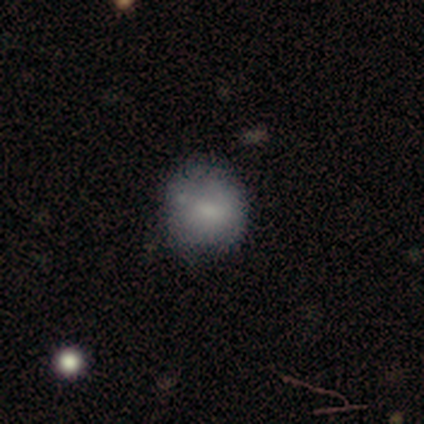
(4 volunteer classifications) A smooth galaxy with no disk features (75%) that is round (100%). Merging: none (100%).